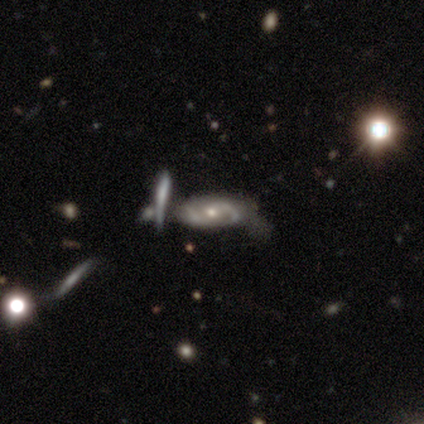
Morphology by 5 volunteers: featured or disk 60%, star or artifact 40%, smooth 0%. Down the decision tree: edge-on disk — no (100%); bar — no (100%); spiral arms — yes (100%); spiral arm count — 2 (100%); spiral winding — medium (100%); bulge size — moderate (67%); merging — none (67%).